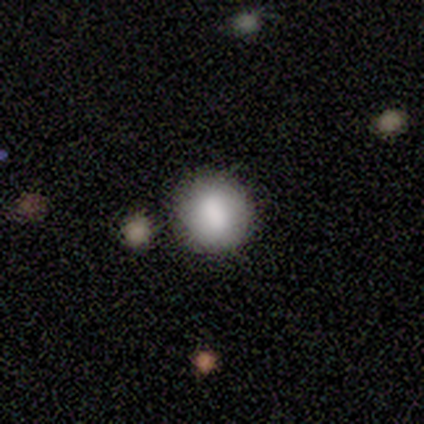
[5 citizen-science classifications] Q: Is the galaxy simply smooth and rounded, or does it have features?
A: smooth — 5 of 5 (100%).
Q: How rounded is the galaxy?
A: round — 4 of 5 (80%).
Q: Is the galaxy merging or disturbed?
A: none — 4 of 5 (80%).